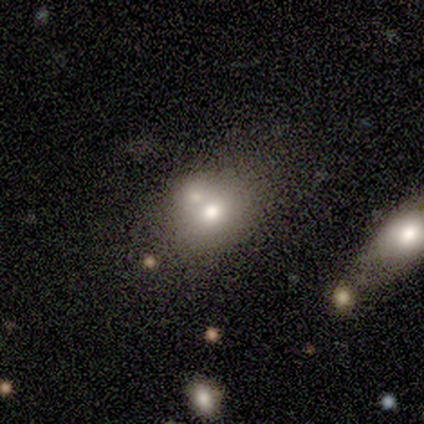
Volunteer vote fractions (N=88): Volunteers were most divided on "merging" (2-way tie): none: 38%, merger: 38%, minor disturbance: 17%, major disturbance: 6%. More confident: smooth or featured — smooth (62%); how rounded — round (58%).